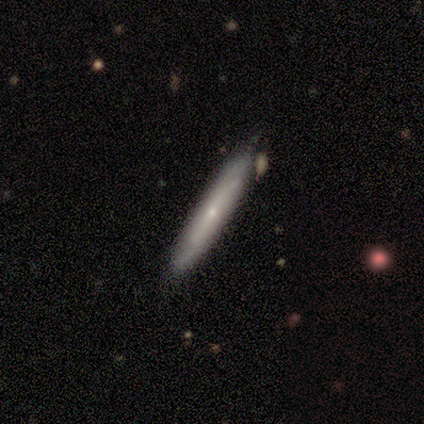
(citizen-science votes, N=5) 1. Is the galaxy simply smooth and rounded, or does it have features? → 60% featured or disk, 40% smooth, 0% star or artifact.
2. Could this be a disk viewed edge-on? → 67% yes, 33% no.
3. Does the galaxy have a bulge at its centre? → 50% none (tied), 50% rounded (tied), 0% boxy.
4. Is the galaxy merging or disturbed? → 60% none, 40% minor disturbance, 0% major disturbance, 0% merger.